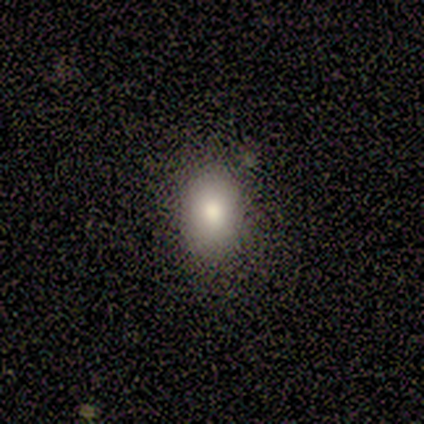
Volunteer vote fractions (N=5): A smooth galaxy with no disk features (80%) that is in between round and cigar-shaped (100%).

Vote fractions:
- Smooth or featured? smooth: 80% / featured or disk: 20% / star or artifact: 0%
- How rounded? in between: 100% / round: 0% / cigar-shaped: 0%
- Merging? none: 100% / minor disturbance: 0% / major disturbance: 0% / merger: 0%